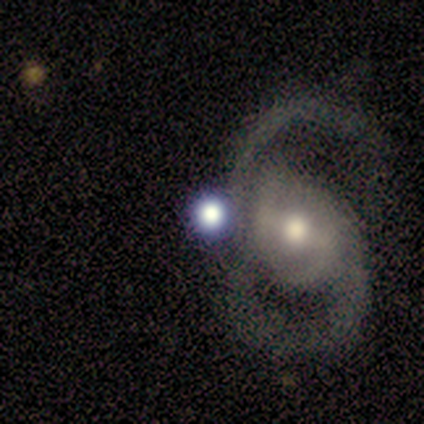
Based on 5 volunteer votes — Smooth or featured? 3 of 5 (60%) said featured or disk. Edge-on disk? 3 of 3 (100%) said no. Bar? 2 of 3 (67%) said weak. Spiral arms? 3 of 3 (100%) said yes. Spiral winding? 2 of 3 (67%) said loose. Spiral arm count? 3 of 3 (100%) said 2. Bulge size? 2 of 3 (67%) said large. Merging? 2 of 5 (40%) said none.